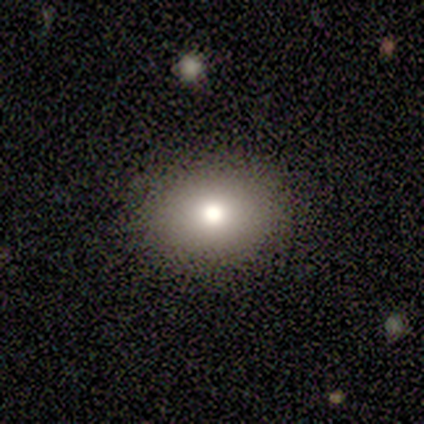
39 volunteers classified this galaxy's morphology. This is clearly a smooth galaxy (87%). How rounded: possibly round (50%, tied with in between). Merging: clearly none (94%).